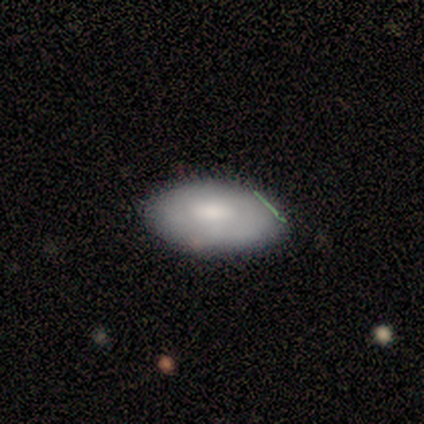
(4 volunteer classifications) Smooth or featured? 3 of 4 (75%) said smooth. How rounded? 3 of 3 (100%) said in between. Merging? 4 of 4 (100%) said none.